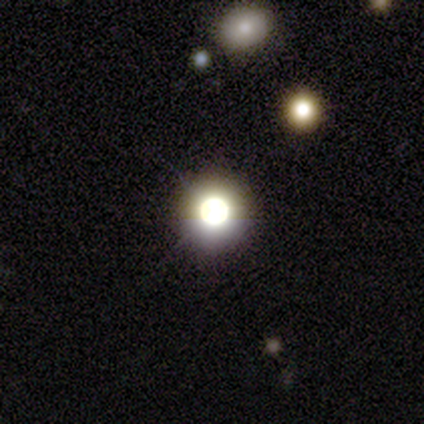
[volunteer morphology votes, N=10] Smooth or featured? 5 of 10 (50%) said star or artifact.